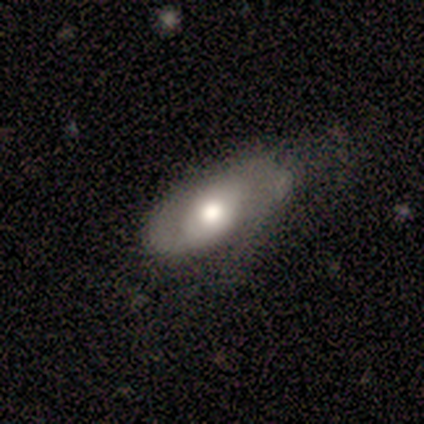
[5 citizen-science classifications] Smooth or featured: featured or disk — 40% (tied with star or artifact — 40%)
Edge-on disk: no — 100%
Bar: strong — 50% (tied with weak — 50%)
Spiral arms: yes — 100%
Spiral winding: medium — 50% (tied with loose — 50%)
Spiral arm count: 2 — 100%
Bulge size: large — 50% (tied with moderate — 50%)
Merging: minor disturbance — 67% (none — 33%)